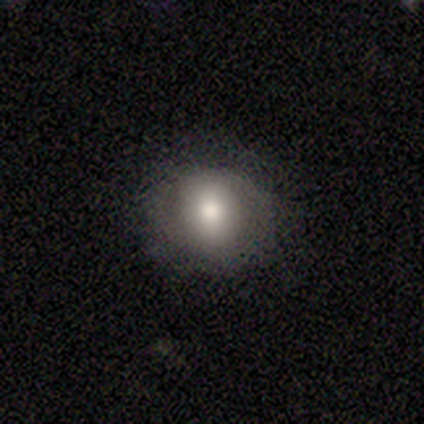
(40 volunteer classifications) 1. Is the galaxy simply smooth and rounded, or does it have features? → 57% smooth, 32% featured or disk, 10% star or artifact.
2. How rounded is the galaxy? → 78% round, 22% in between, 0% cigar-shaped.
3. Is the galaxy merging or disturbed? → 86% none, 8% minor disturbance, 6% major disturbance, 0% merger.